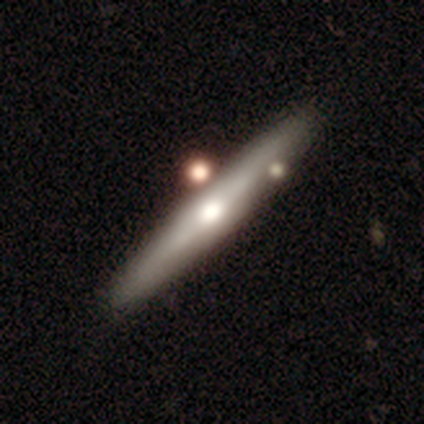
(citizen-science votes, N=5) Volunteers were most divided on "smooth or featured": featured or disk: 60%, smooth: 40%, star or artifact: 0%. More confident: edge-on disk — yes (100%); edge-on bulge — rounded (100%); merging — none (60%).